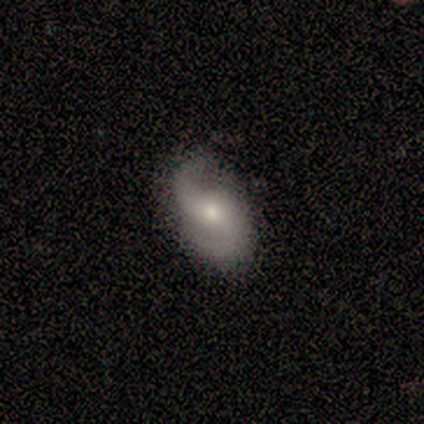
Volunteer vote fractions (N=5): This appears to be a featured or disk galaxy (100%) with no bar (60%), 2 (100%) medium (75%) spiral arms (80%) and a small central bulge (60%). Merging: none (100%).